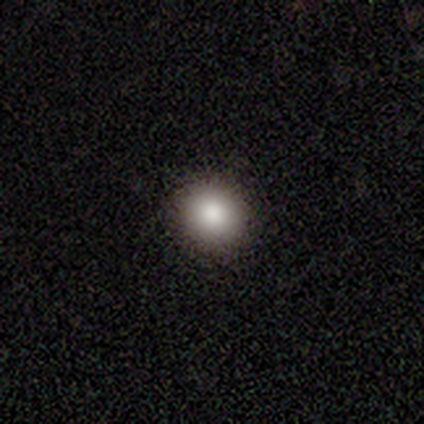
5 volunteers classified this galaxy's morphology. A smooth galaxy with no disk features (80%) that is round (100%).

Vote fractions:
- Smooth or featured? smooth: 80% / star or artifact: 20% / featured or disk: 0%
- How rounded? round: 100% / in between: 0% / cigar-shaped: 0%
- Merging? none: 50% (tied) / minor disturbance: 50% (tied) / major disturbance: 0% / merger: 0%